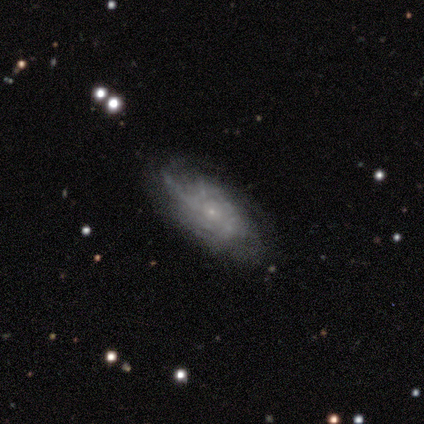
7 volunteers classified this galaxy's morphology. This appears to be a featured or disk galaxy (57%) with no bar (100%), medium (50%) spiral arms (100%) and a small central bulge (75%). Merging: none (57%).